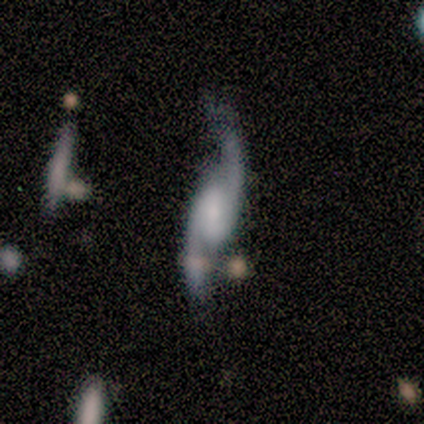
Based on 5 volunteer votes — This appears to be a featured or disk galaxy (80%) with a weak bar (75%), 2 (100%) loose (75%) spiral arms (100%) and a small central bulge (75%). Merging: minor disturbance (60%).